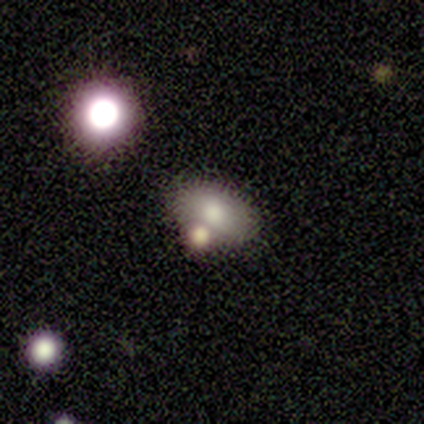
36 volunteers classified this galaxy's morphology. Volunteers were most divided on "merging": none: 57%, merger: 23%, minor disturbance: 17%, major disturbance: 3%. More confident: how rounded — in between (86%); smooth or featured — smooth (78%).